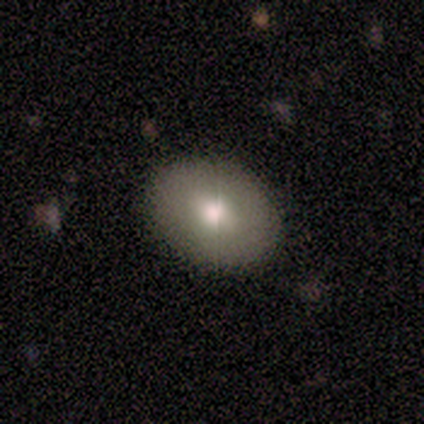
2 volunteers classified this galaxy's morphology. A smooth galaxy with no disk features (50%, tied with featured or disk) that is in between round and cigar-shaped (100%). Merging: none (100%).